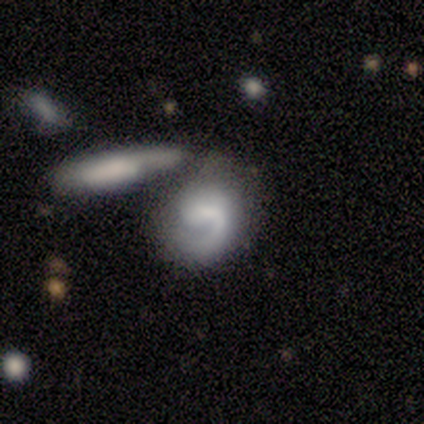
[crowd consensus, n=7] smooth-or-featured: featured or disk: 71% | smooth: 29% | star or artifact: 0%
  disk-edge-on: no: 100% | yes: 0%
    bar: weak: 60% | no: 40% | strong: 0%
    has-spiral-arms: yes: 100% | no: 0%
      spiral-winding: loose: 60% | tight: 40% | medium: 0%
      spiral-arm-count: 1: 80% | 2: 20% | 3: 0% | 4: 0% | more than 4: 0% | can't tell: 0%
    bulge-size: moderate: 40% (tied) | small: 40% (tied) | none: 20% | dominant: 0% | large: 0%
  merging: none: 43% | minor disturbance: 29% | merger: 29% | major disturbance: 0%